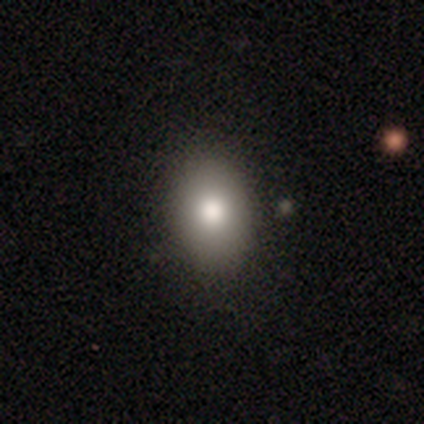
Smooth or featured? smooth (81%)
How rounded? in between (62%)
Merging? none (90%)